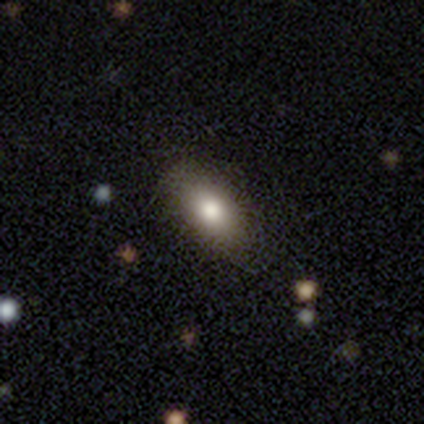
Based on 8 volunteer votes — A smooth galaxy with no disk features (88%) that is in between round and cigar-shaped (100%).

Vote fractions:
- Smooth or featured? smooth: 88% / featured or disk: 12% / star or artifact: 0%
- How rounded? in between: 100% / round: 0% / cigar-shaped: 0%
- Merging? none: 62% / minor disturbance: 38% / major disturbance: 0% / merger: 0%